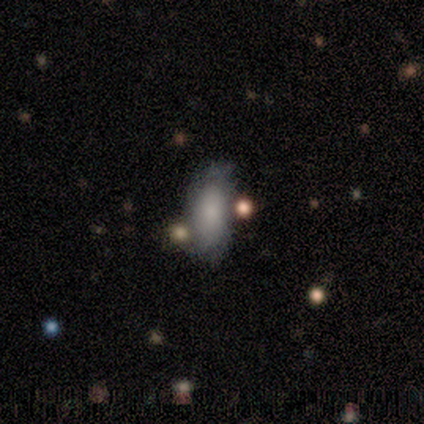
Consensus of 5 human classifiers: Smooth or featured?
  - featured or disk: 60% *
  - smooth: 40%
  - star or artifact: 0%
Edge-on disk?
  - no: 100% *
  - yes: 0%
Bar?
  - no: 100% *
  - strong: 0%
  - weak: 0%
Spiral arms?
  - no: 100% *
  - yes: 0%
Bulge size?
  - none: 67% *
  - moderate: 33%
  - dominant: 0%
  - large: 0%
  - small: 0%
Merging?
  - none: 40% * (tied)
  - minor disturbance: 40% * (tied)
  - major disturbance: 20%
  - merger: 0%